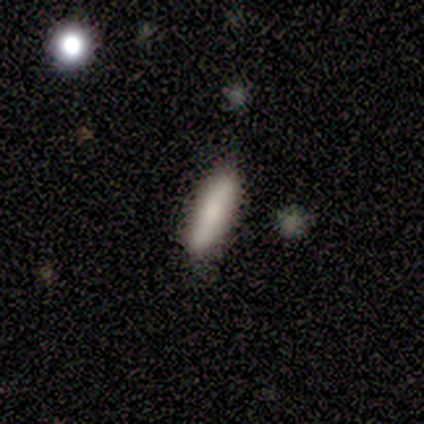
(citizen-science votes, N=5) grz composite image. It shows a smooth galaxy with no disk features (100%) that is cigar-shaped (60%). Merging: none (80%).